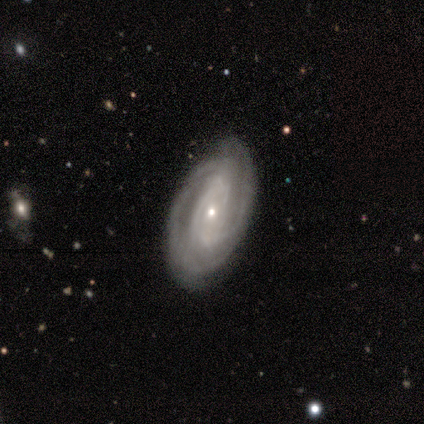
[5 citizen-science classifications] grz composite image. It shows a featured or disk galaxy (100%) with no bar (80%), tight (60%) spiral arms (100%) and a small central bulge (60%). Merging: none (100%).